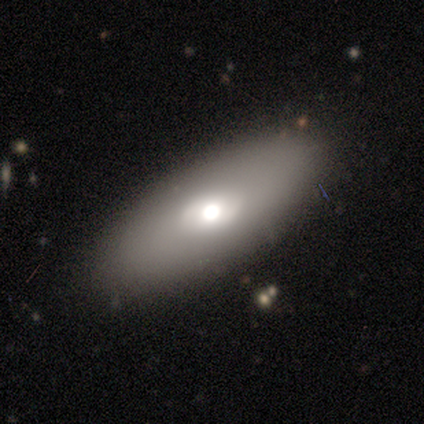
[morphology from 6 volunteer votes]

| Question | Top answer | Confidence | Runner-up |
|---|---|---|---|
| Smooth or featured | smooth | 83% | featured or disk (17%) |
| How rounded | in between | 80% | cigar-shaped (20%) |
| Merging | none | 67% | minor disturbance (17%) |